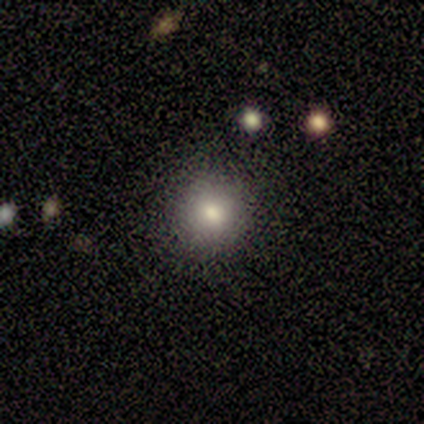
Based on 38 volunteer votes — This is likely a smooth galaxy (66%). How rounded: clearly round (96%). Merging: clearly none (91%).